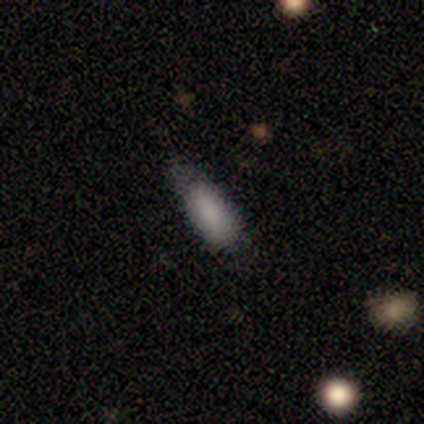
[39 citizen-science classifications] A smooth galaxy with no disk features (87%) that is in between round and cigar-shaped (85%). Merging: none (65%).